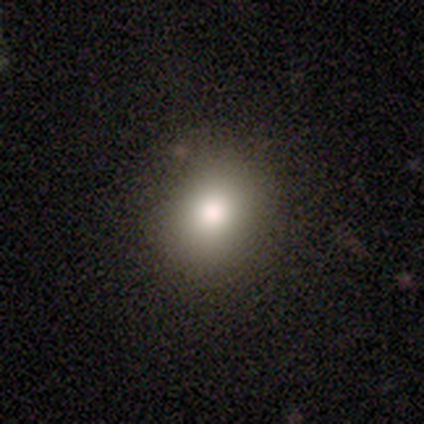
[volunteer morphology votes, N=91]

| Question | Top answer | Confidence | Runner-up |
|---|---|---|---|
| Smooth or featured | smooth | 79% | star or artifact (12%) |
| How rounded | round | 64% | in between (36%) |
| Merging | none | 81% | minor disturbance (14%) |